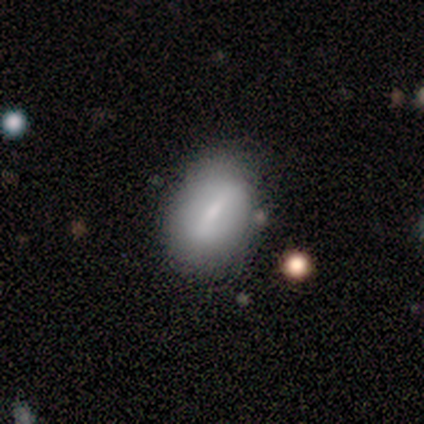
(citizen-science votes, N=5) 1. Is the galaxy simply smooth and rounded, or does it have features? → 60% smooth, 20% featured or disk, 20% star or artifact.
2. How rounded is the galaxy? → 67% in between, 33% round, 0% cigar-shaped.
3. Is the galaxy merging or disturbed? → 75% none, 25% minor disturbance, 0% major disturbance, 0% merger.